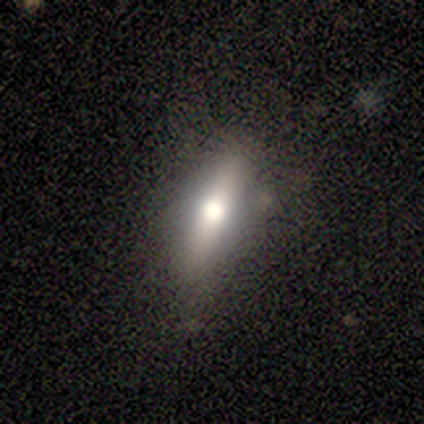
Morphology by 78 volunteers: type=smooth (58%); roundness=in between (47%, tied with cigar-shaped); merging=none (41%).